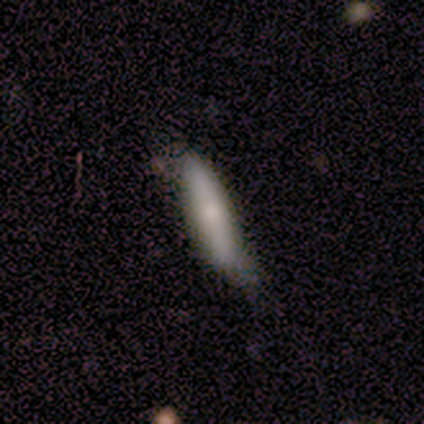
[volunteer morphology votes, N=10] smooth_or_featured: smooth (p=0.80) [alt: featured or disk p=0.20]
how_rounded: cigar-shaped (p=0.88) [alt: in between p=0.12]
merging: minor disturbance (p=0.60) [alt: none p=0.40]